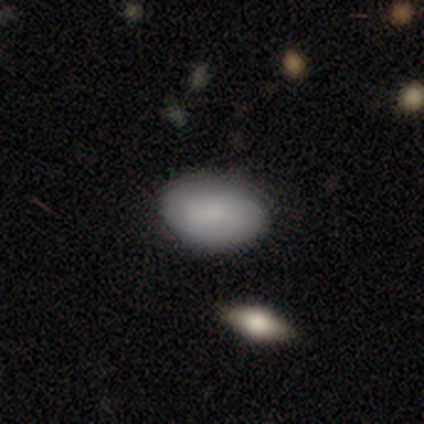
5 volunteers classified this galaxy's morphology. Smooth or featured? smooth (80%)
How rounded? in between (100%)
Merging? none (100%)